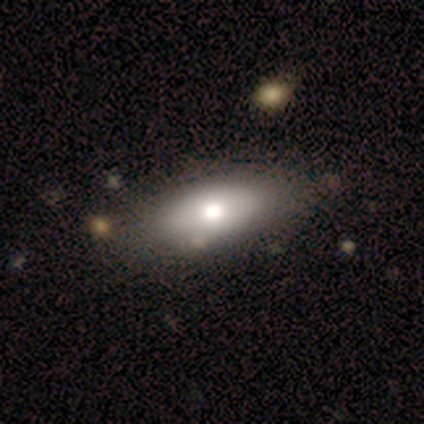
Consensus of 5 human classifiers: smooth-or-featured: smooth: 80% | featured or disk: 20% | star or artifact: 0%
  how-rounded: in between: 100% | round: 0% | cigar-shaped: 0%
  merging: none: 60% | minor disturbance: 40% | major disturbance: 0% | merger: 0%